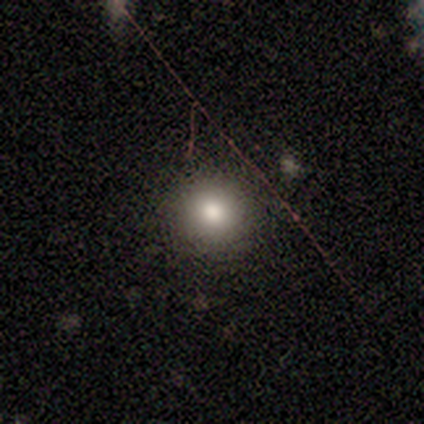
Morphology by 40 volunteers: A smooth galaxy with no disk features (65%) that is round (96%).

Vote fractions:
- Smooth or featured? smooth: 65% / star or artifact: 22% / featured or disk: 12%
- How rounded? round: 96% / cigar-shaped: 4% / in between: 0%
- Merging? none: 87% / minor disturbance: 6% / major disturbance: 3% / merger: 3%